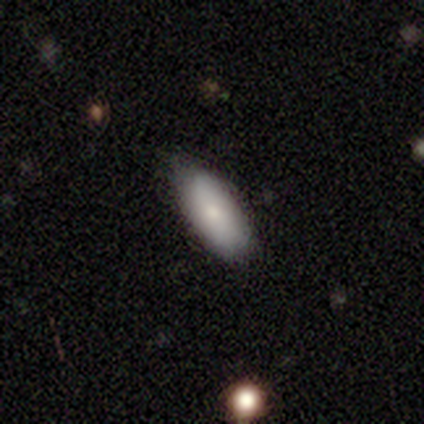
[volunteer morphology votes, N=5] Smooth or featured?
  - smooth: 80% *
  - featured or disk: 20%
  - star or artifact: 0%
How rounded?
  - in between: 75% *
  - cigar-shaped: 25%
  - round: 0%
Merging?
  - none: 80% *
  - minor disturbance: 20%
  - major disturbance: 0%
  - merger: 0%